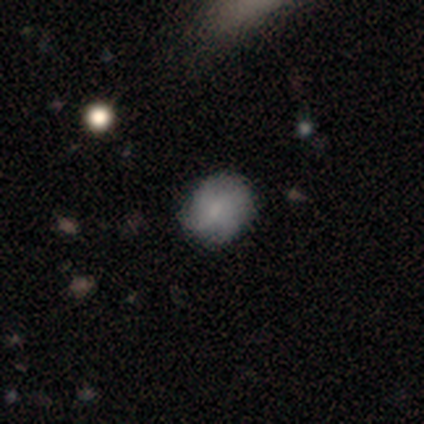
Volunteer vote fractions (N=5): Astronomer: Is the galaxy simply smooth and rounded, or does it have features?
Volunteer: smooth — 80%.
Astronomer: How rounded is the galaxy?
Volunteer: round — 75%.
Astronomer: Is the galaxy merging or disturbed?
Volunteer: none — 60% (runner-up: minor disturbance, 40%).